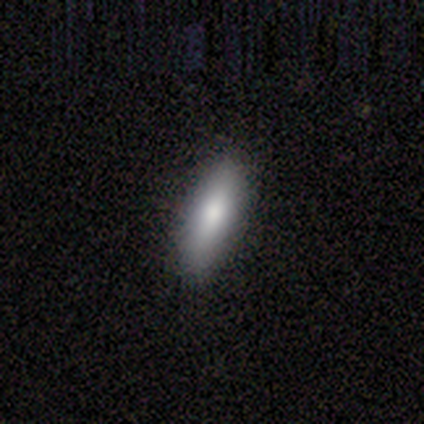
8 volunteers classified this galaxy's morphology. Q: Smooth or featured?
A: smooth (75%); runner-up: featured or disk (25%)
Q: How rounded?
A: in between (67%); runner-up: cigar-shaped (33%)
Q: Merging?
A: none (88%); runner-up: minor disturbance (12%)